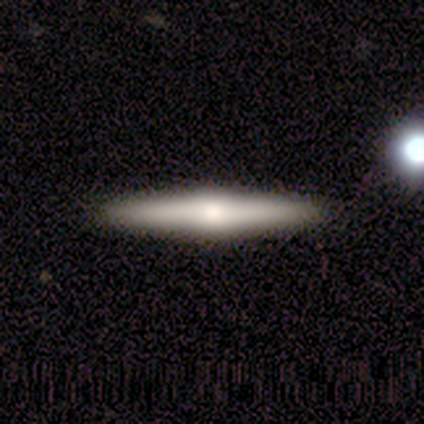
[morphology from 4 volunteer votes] This appears to be a featured or disk galaxy (75%) viewed edge-on (100%) with a rounded central bulge (67%). Merging: none (75%).